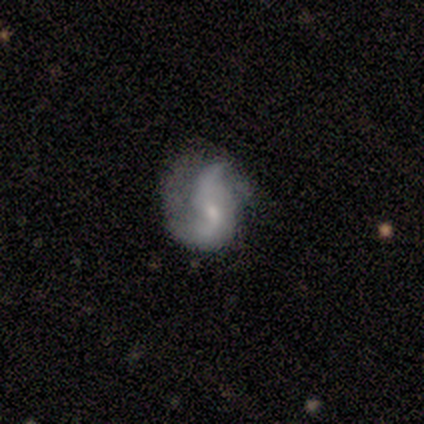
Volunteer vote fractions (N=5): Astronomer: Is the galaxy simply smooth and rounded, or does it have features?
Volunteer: featured or disk — 100%.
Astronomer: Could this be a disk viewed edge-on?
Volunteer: no — 100%.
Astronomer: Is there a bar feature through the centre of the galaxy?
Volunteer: weak — 60% (runner-up: no, 40%).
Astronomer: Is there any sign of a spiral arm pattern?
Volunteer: yes — 100%.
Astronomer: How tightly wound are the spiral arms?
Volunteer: loose — 80%.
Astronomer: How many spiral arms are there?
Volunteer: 2 — 60%.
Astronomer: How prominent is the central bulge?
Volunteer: small — 80%.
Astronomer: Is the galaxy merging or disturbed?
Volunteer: none — 40%, tied with minor disturbance at 40%.